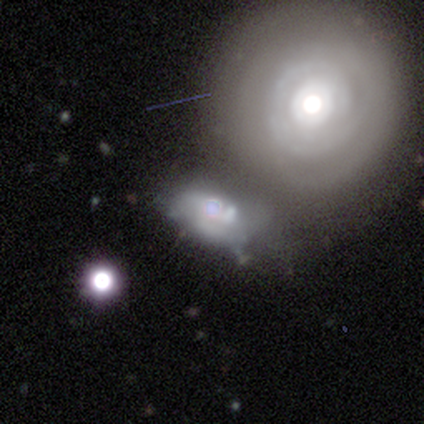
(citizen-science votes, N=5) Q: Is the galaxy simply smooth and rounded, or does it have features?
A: star or artifact — 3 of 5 (60%).